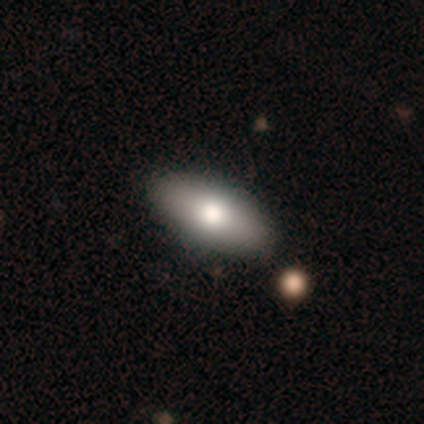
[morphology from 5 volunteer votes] This is clearly a smooth galaxy (80%). How rounded: clearly in between (100%). Merging: clearly none (100%).